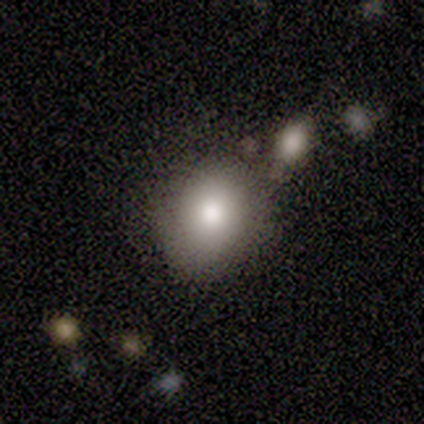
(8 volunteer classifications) Morphology: type=smooth (100%); roundness=round (62%); merging=none (50%).